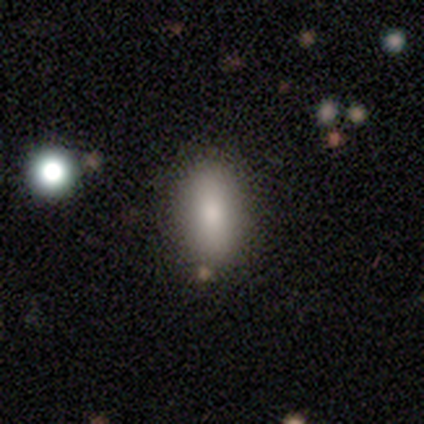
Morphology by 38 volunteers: This is clearly a smooth galaxy (84%). How rounded: clearly in between (94%). Merging: possibly none (58%).